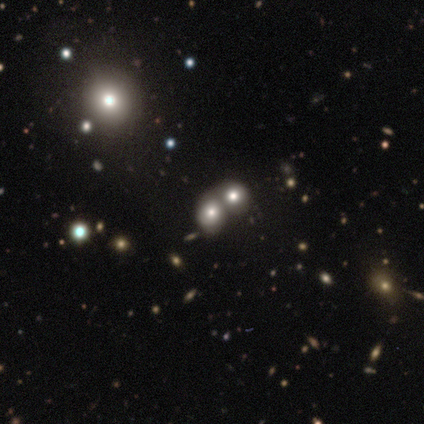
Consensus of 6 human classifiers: Q: Smooth or featured?
A: smooth (50%); tied with: star or artifact (50%)
Q: How rounded?
A: round (67%); runner-up: in between (33%)
Q: Merging?
A: merger (100%)